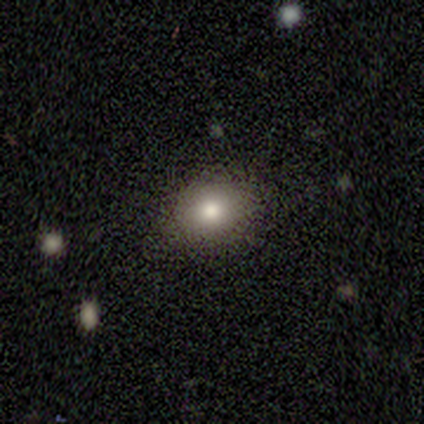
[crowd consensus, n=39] Overall: smooth (85%). How rounded: round (64%; in between 36%). Merging: none (81%).